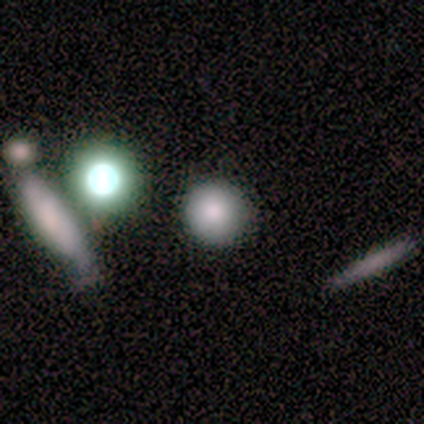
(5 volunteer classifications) Smooth or featured: smooth — 60% (featured or disk — 40%)
How rounded: round — 67% (in between — 33%)
Merging: none — 80% (merger — 20%)